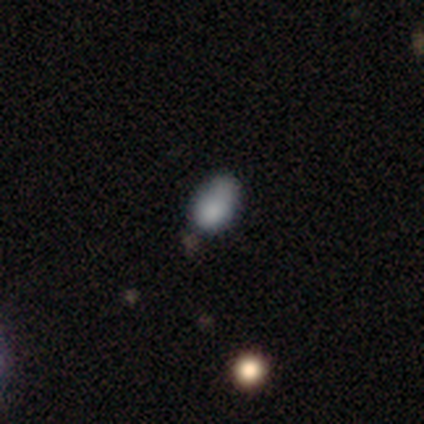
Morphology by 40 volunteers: Smooth or featured? 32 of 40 (80%) said smooth. How rounded? 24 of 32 (75%) said in between. Merging? 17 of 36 (47%) said minor disturbance.